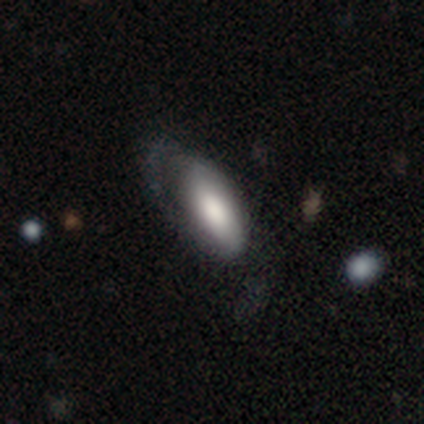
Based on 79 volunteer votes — A smooth galaxy with no disk features (67%) that is in between round and cigar-shaped (87%). Merging: major disturbance (30%).